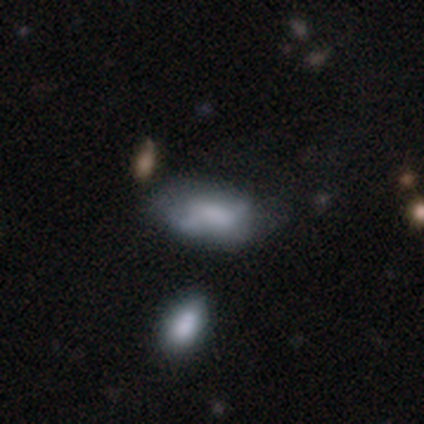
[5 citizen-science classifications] smooth-or-featured: smooth: 100% | featured or disk: 0% | star or artifact: 0%
  how-rounded: in between: 100% | round: 0% | cigar-shaped: 0%
  merging: minor disturbance: 60% | none: 40% | major disturbance: 0% | merger: 0%